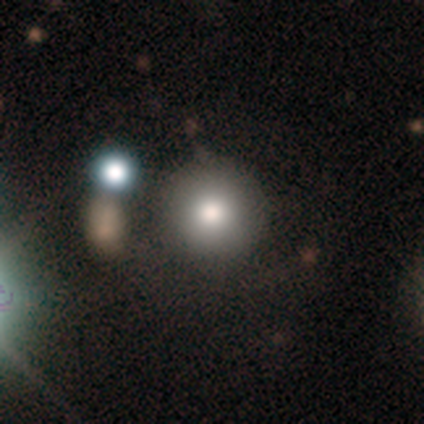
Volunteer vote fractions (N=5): A smooth galaxy with no disk features (60%) that is round (100%). Merging: none (100%).